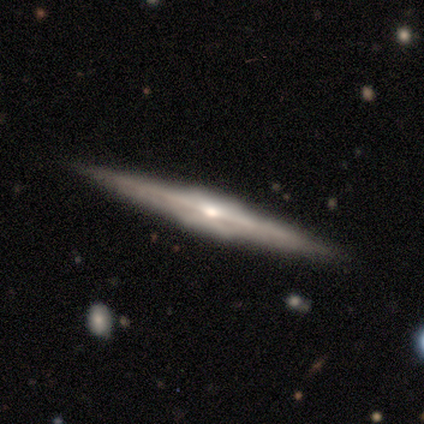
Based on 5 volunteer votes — Smooth or featured: featured or disk — 100%
Edge-on disk: yes — 100%
Edge-on bulge: rounded — 60% (boxy — 40%)
Merging: none — 100%